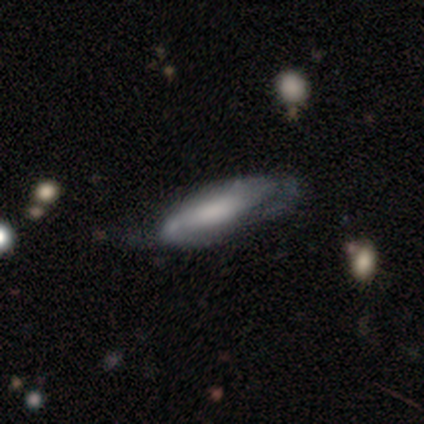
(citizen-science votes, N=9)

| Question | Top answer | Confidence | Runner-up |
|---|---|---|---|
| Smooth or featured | featured or disk | 78% | smooth (11%) |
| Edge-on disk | no | 71% | yes (29%) |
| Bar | no | 60% | weak (40%) |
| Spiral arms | yes | 60% | no (40%) |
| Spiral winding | loose | 67% | tight (33%) |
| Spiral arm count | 2 | 67% | can't tell (33%) |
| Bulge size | none | 40% | large (20%) |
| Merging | minor disturbance | 75% | none (25%) |